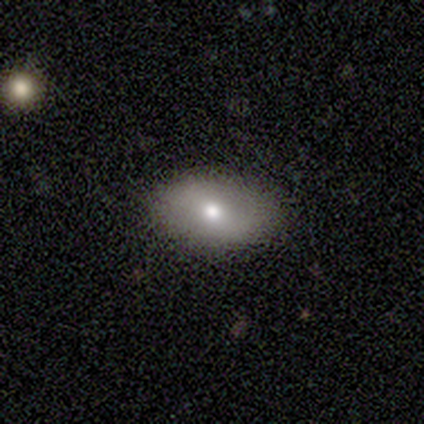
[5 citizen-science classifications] Overall: smooth (80%). How rounded: in between (100%). Merging: none (75%).